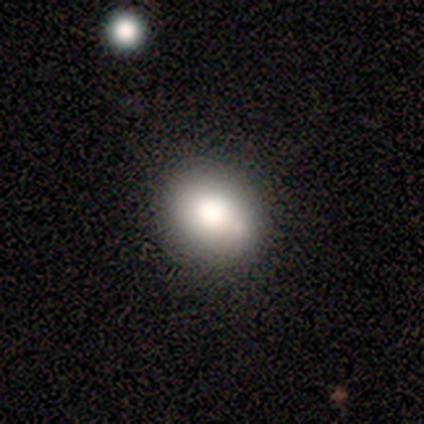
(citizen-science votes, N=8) Smooth or featured? smooth (88%)
How rounded? round (86%)
Merging? none (75%)